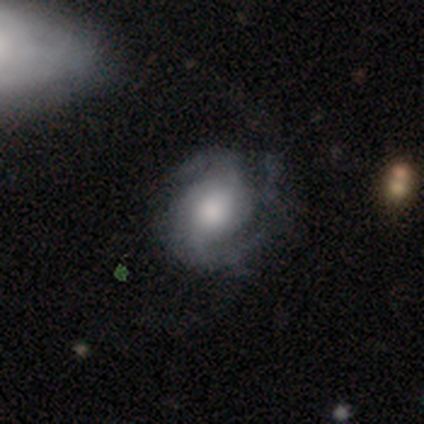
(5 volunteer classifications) A featured or disk galaxy (100%) with no bar (60%), 2 (80%) medium (60%) spiral arms (100%) and a large central bulge (80%). Merging: none (60%).